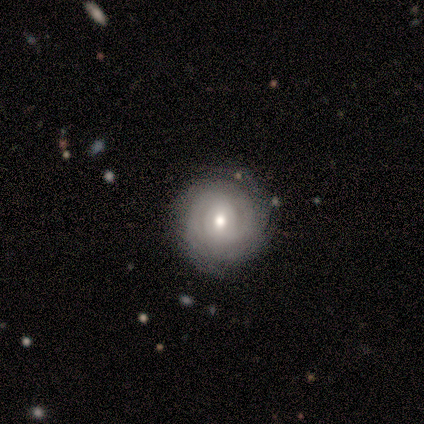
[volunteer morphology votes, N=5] This appears to be a featured or disk galaxy (80%) with no bar (75%), tight (100%) spiral arms (100%) and a moderate central bulge (50%, tied with small). Merging: none (100%).